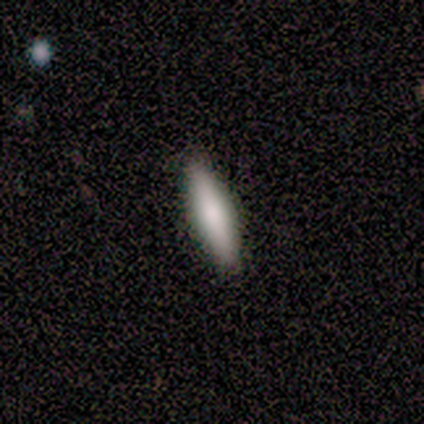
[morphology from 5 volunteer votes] Smooth or featured? 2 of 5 (40%, tied with featured or disk) said smooth. How rounded? 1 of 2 (50%, tied with cigar-shaped) said in between. Merging? 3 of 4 (75%) said none.